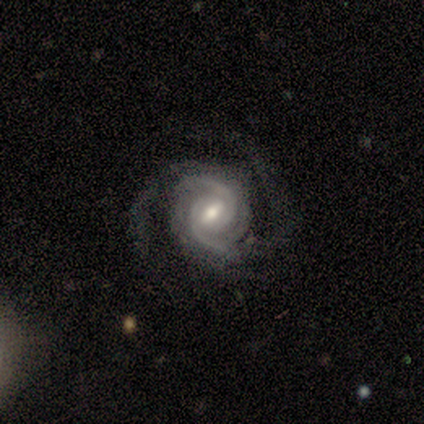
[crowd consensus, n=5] This is clearly a featured or disk galaxy (100%). It is clearly not viewed edge-on (100%). Bar: likely weak (60%). Spiral arm pattern: clearly yes (100%). Spiral arm count: clearly 2 (80%). Spiral winding: clearly tight (80%). Central bulge: clearly moderate (80%). Merging: marginally none (40%, tied with major disturbance).